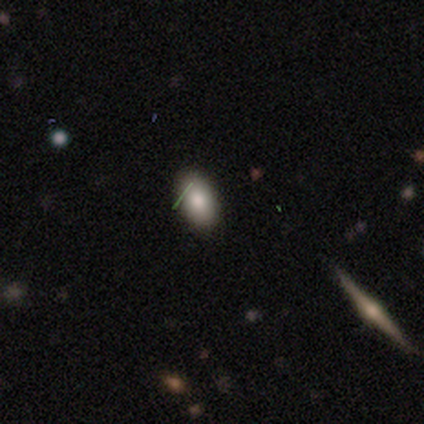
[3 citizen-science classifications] A smooth galaxy with no disk features (100%) that is in between round and cigar-shaped (100%).

Vote fractions:
- Smooth or featured? smooth: 100% / featured or disk: 0% / star or artifact: 0%
- How rounded? in between: 100% / round: 0% / cigar-shaped: 0%
- Merging? none: 100% / minor disturbance: 0% / major disturbance: 0% / merger: 0%